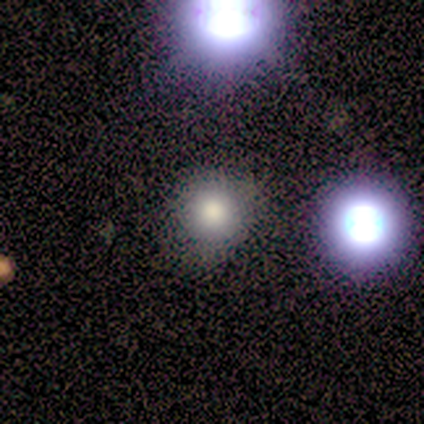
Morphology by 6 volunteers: This appears to be a smooth galaxy with no disk features (83%) that is round (100%). Merging: none (80%).